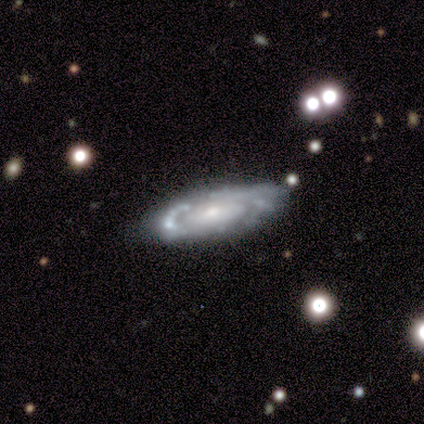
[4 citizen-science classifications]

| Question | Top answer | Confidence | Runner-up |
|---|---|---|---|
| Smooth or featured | featured or disk | 100% | — |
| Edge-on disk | no | 75% | yes (25%) |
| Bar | no | 100% | — |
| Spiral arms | no | 67% | yes (33%) |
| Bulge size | small | 67% | moderate (33%) |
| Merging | none | 75% | minor disturbance (25%) |